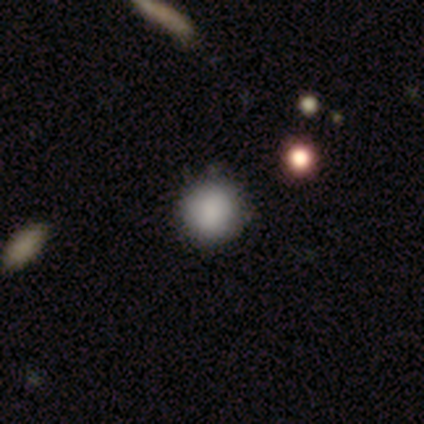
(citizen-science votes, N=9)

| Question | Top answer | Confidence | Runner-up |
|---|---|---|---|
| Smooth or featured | smooth | 89% | star or artifact (11%) |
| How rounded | round | 100% | — |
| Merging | none | 88% | major disturbance (12%) |